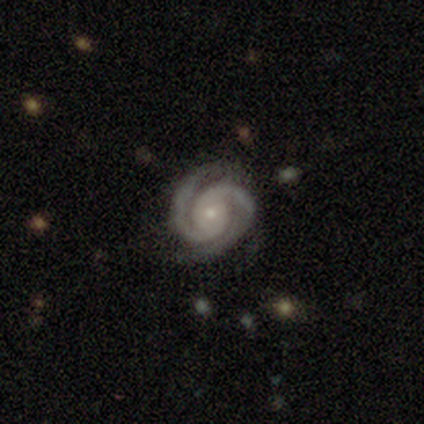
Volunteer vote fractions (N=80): A featured or disk galaxy (95%) with no bar (83%), 2 (89%) tight (71%) spiral arms (100%) and a small central bulge (68%).

Vote fractions:
- Smooth or featured? featured or disk: 95% / smooth: 2% / star or artifact: 2%
- Edge-on disk? no: 100% / yes: 0%
- Bar? no: 83% / weak: 14% / strong: 3%
- Spiral arms? yes: 100% / no: 0%
- Spiral winding? tight: 71% / medium: 22% / loose: 7%
- Spiral arm count? 2: 89% / 3: 8% / 4: 1% / can't tell: 1% / 1: 0% / more than 4: 0%
- Bulge size? small: 68% / moderate: 28% / dominant: 3% / none: 1% / large: 0%
- Merging? none: 42% / minor disturbance: 5% / major disturbance: 4% / merger: 1%